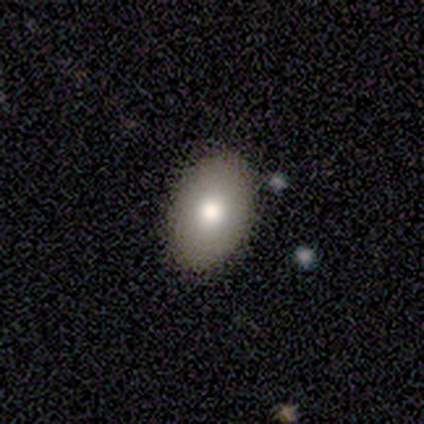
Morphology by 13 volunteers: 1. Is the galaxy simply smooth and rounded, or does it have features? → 77% smooth, 15% star or artifact, 8% featured or disk.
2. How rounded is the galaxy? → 100% in between, 0% round, 0% cigar-shaped.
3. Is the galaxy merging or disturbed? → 82% none, 18% minor disturbance, 0% major disturbance, 0% merger.